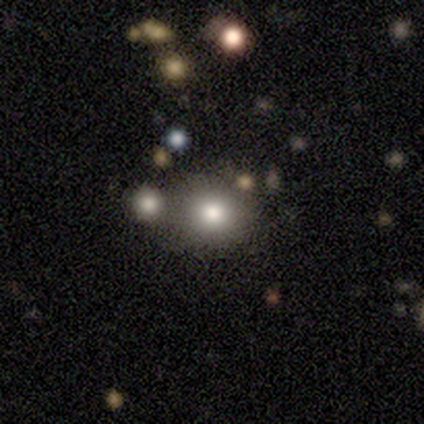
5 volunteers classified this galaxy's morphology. This appears to be a smooth galaxy with no disk features (80%) that is round (75%). Merging: none (40%, tied with merger).